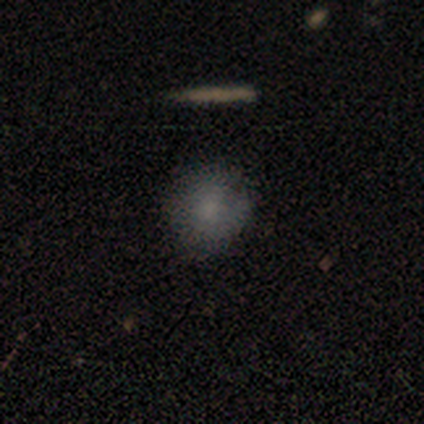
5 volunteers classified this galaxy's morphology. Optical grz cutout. It shows a smooth galaxy with no disk features (80%) that is round (75%). Merging: none (80%).